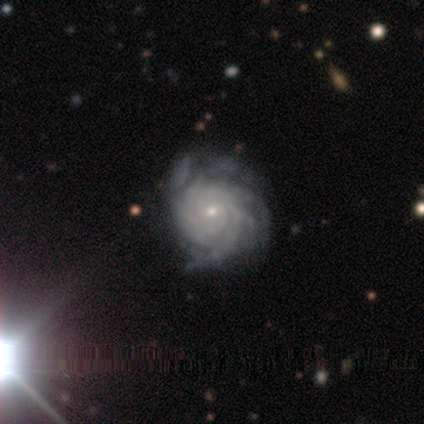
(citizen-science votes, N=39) featured or disk 92%, star or artifact 8%, smooth 0%. Down the decision tree: edge-on disk — no (100%); bar — no (75%); spiral arms — yes (97%); spiral arm count — more than 4 (40%); spiral winding — tight (66%); bulge size — small (78%); merging — none (42%).